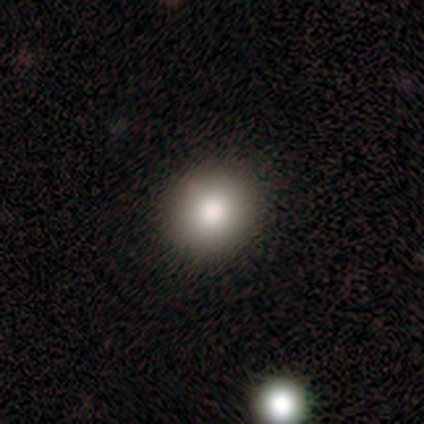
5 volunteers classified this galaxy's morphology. Volunteers were most divided on "how rounded": round: 75%, in between: 25%, cigar-shaped: 0%. More confident: merging — none (100%); smooth or featured — smooth (80%).